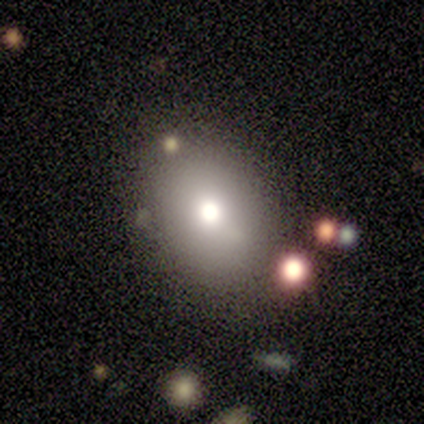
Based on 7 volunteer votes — Q: Smooth or featured?
A: smooth (100%)
Q: How rounded?
A: in between (86%); runner-up: round (14%)
Q: Merging?
A: none (71%); runner-up: minor disturbance (14%)